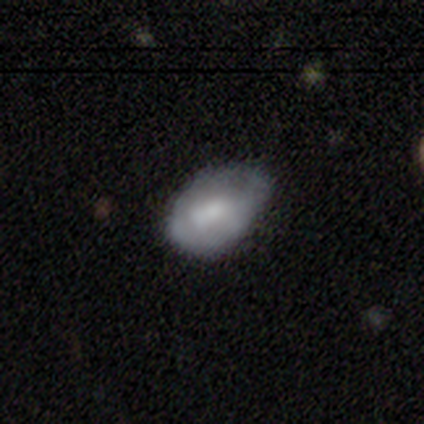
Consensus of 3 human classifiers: smooth_or_featured: featured or disk (p=0.67) [alt: smooth p=0.33]
disk_edge_on: no (p=1.00)
bar: no (p=1.00)
has_spiral_arms: no (p=1.00)
bulge_size: moderate (p=0.50) [tied with: none p=0.50]
merging: minor disturbance (p=0.67) [alt: major disturbance p=0.33]